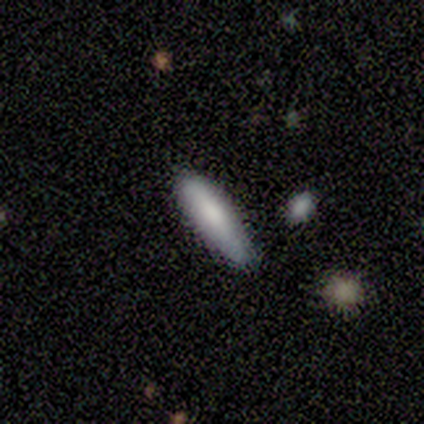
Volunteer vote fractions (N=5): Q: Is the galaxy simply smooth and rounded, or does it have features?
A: smooth — 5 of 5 (100%).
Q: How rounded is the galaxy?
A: cigar-shaped — 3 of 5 (60%).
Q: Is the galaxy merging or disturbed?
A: none — 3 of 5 (60%).